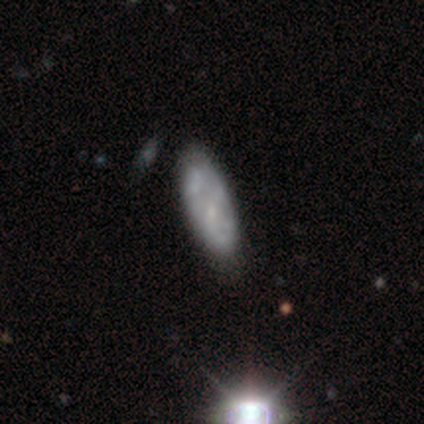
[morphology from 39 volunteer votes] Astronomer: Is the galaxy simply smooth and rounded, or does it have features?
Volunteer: featured or disk — 46% (runner-up: smooth, 38%).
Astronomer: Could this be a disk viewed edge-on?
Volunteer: no — 83%.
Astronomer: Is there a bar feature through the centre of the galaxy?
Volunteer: no — 100%.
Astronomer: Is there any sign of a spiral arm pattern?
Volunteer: no — 60% (runner-up: yes, 40%).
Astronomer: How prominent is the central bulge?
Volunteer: small — 73%.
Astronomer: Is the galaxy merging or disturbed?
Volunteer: none — 42%.